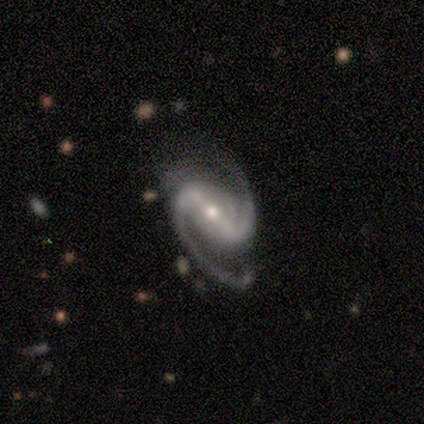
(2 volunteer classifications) Smooth or featured? 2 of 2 (100%) said featured or disk. Edge-on disk? 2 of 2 (100%) said no. Bar? 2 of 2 (100%) said strong. Spiral arms? 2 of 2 (100%) said yes. Spiral winding? 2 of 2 (100%) said medium. Spiral arm count? 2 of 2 (100%) said 2. Bulge size? 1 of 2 (50%, tied with none) said moderate. Merging? 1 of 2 (50%, tied with major disturbance) said none.